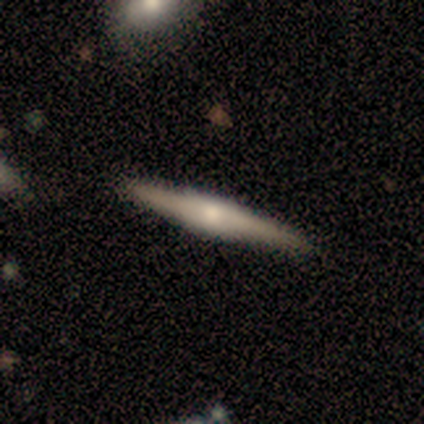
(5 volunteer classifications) This is likely a featured or disk galaxy (60%). It is clearly viewed edge-on (100%). Edge-on bulge: likely rounded (67%). Merging: clearly none (100%).